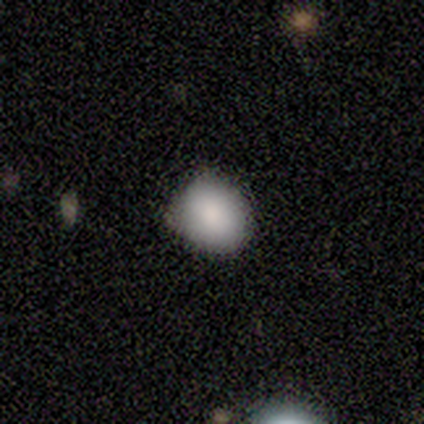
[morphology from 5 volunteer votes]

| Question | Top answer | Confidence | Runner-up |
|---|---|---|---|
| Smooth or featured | smooth | 80% | star or artifact (20%) |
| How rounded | round | 50% | tied: in between (50%) |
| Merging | none | 100% | — |